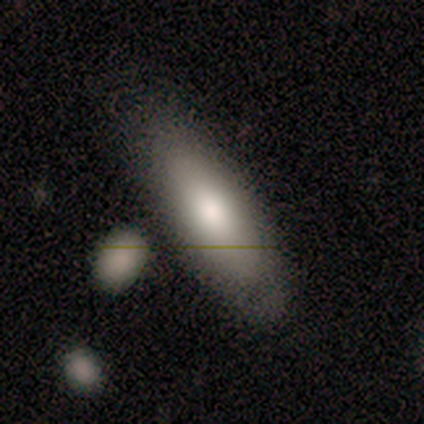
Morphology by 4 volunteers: smooth_or_featured: smooth (p=1.00)
how_rounded: in between (p=0.50) [tied with: cigar-shaped p=0.50]
merging: none (p=1.00)